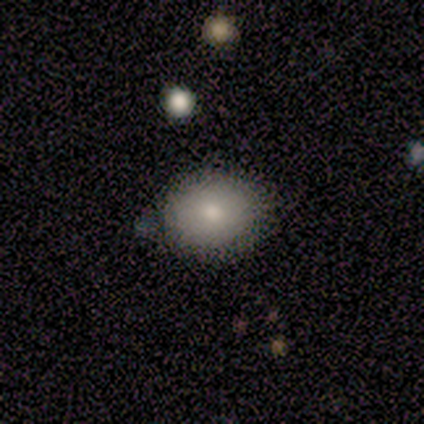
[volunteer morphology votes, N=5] type=smooth (80%); roundness=in between (75%); merging=none (60%).